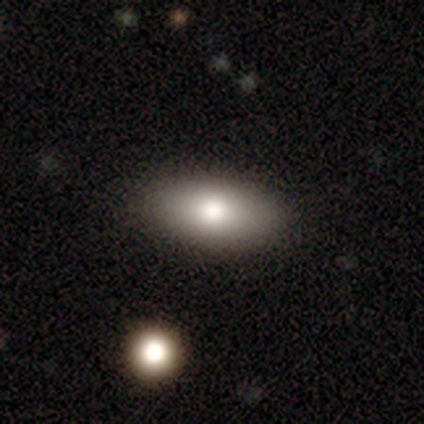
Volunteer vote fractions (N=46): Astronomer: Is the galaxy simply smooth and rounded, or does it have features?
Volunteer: smooth — 74%.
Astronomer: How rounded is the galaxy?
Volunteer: in between — 91%.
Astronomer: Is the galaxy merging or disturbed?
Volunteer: none — 81%.